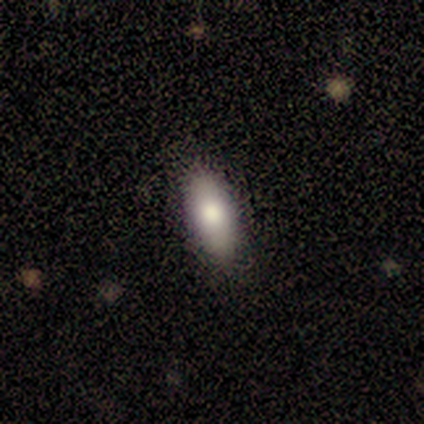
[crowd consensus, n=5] Smooth or featured? smooth (80%)
How rounded? in between (75%)
Merging? none (75%)